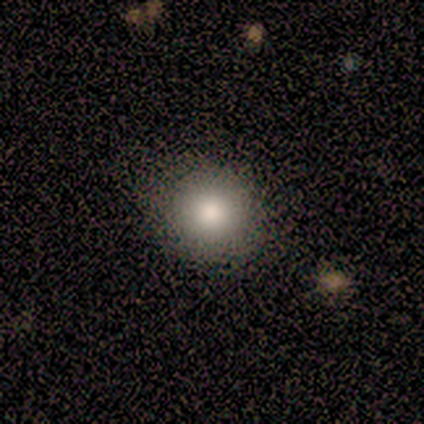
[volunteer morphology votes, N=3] Smooth or featured? 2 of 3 (67%) said smooth. How rounded? 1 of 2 (50%, tied with in between) said round. Merging? 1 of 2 (50%, tied with minor disturbance) said none.